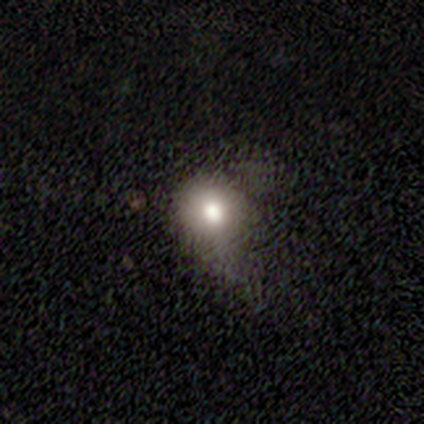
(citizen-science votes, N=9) Volunteers were most divided on "smooth or featured": smooth: 44%, featured or disk: 33%, star or artifact: 22%. Remaining: how rounded — round (75%); merging — minor disturbance (43%).